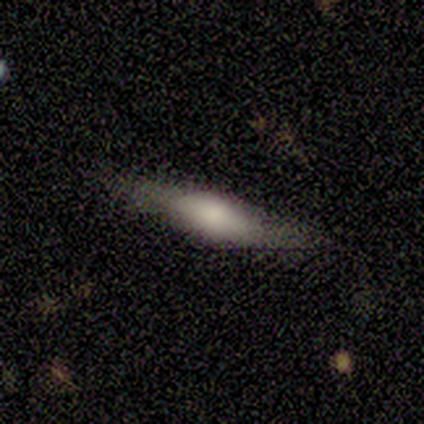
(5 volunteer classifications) Smooth or featured? smooth (60%)
How rounded? cigar-shaped (67%)
Merging? none (80%)